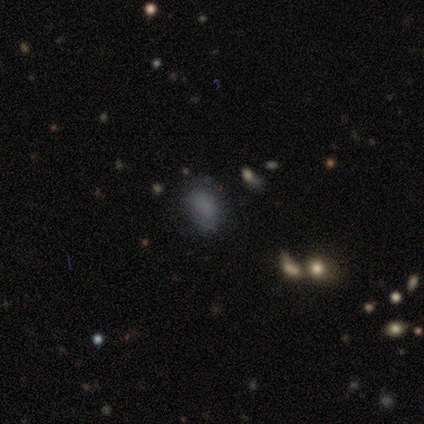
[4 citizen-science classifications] smooth_or_featured: smooth (p=0.50) [tied with: star or artifact p=0.50]
how_rounded: in between (p=1.00)
merging: none (p=1.00)